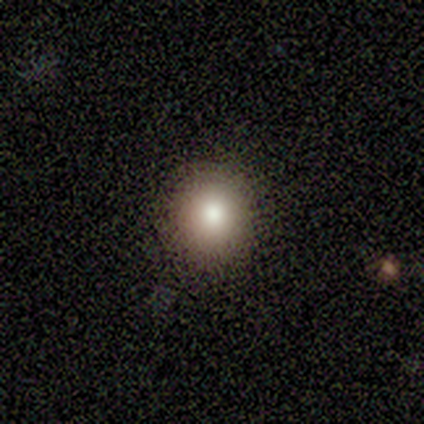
Volunteers were most divided on "how rounded": round: 67%, in between: 33%, cigar-shaped: 0%. More confident: merging — none (100%); smooth or featured — smooth (60%).